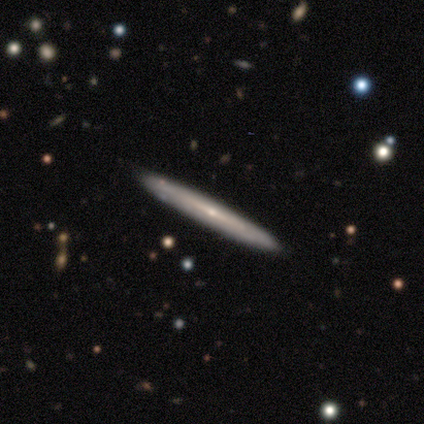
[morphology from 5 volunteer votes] A featured or disk galaxy (80%) viewed edge-on (100%) with no central bulge (50%, tied with rounded). Merging: none (100%).